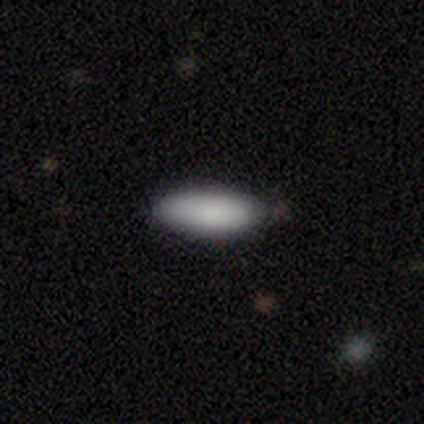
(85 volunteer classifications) smooth_or_featured: smooth (p=0.93) [alt: featured or disk p=0.05]
how_rounded: in between (p=0.72) [alt: cigar-shaped p=0.28]
merging: none (p=0.81) [alt: minor disturbance p=0.18]